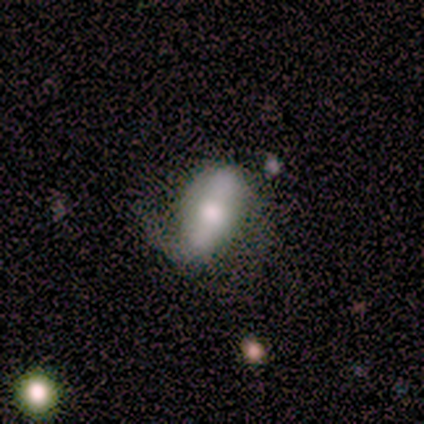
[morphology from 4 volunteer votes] smooth 50% (tied), featured or disk 50% (tied), star or artifact 0%. Down the decision tree: how rounded — in between (100%); merging — none (75%).